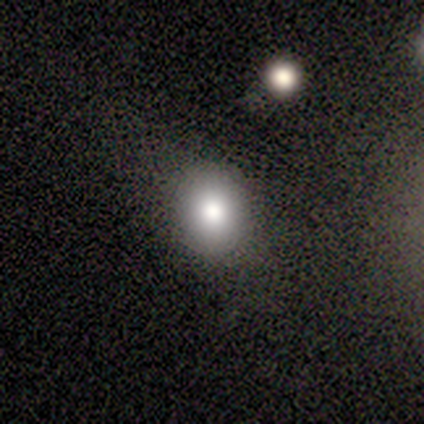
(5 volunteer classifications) Volunteers were most divided on "smooth or featured": smooth: 60%, featured or disk: 40%, star or artifact: 0%. More confident: merging — none (100%); how rounded — round (67%).